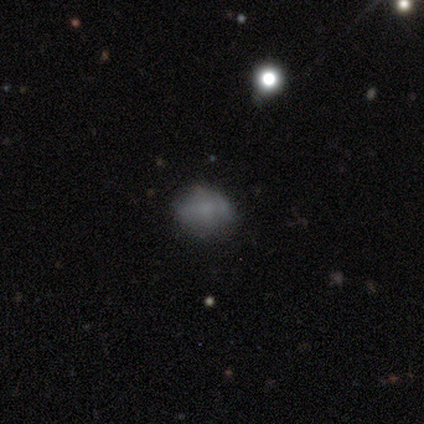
This is clearly a smooth galaxy (100%). How rounded: clearly round (80%). Merging: likely none (60%).